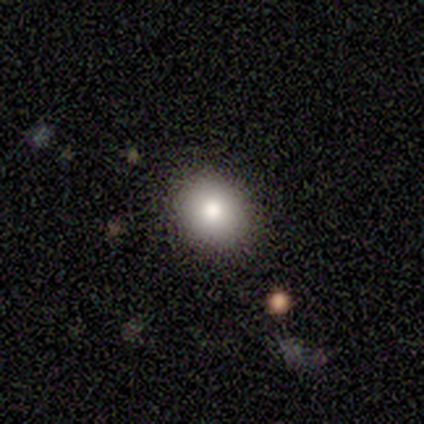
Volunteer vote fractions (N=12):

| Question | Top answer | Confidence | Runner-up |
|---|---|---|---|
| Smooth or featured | smooth | 100% | — |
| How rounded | round | 58% | in between (42%) |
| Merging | none | 100% | — |